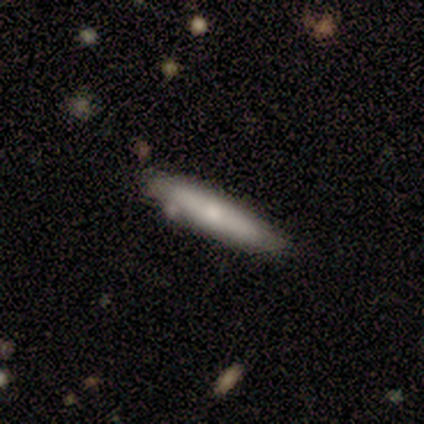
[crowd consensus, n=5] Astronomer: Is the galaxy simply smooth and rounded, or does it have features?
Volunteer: smooth — 80%.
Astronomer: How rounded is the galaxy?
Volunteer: cigar-shaped — 100%.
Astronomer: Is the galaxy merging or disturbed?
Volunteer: none — 80%.